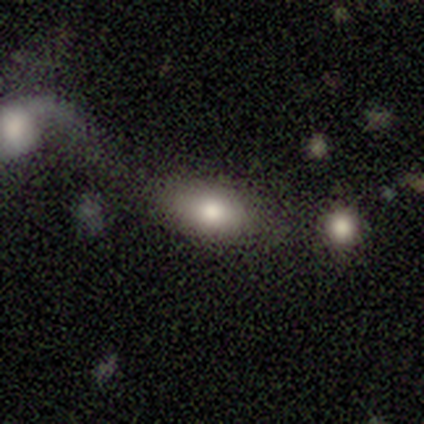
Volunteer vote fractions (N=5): Smooth or featured?
  - smooth: 60% *
  - featured or disk: 20%
  - star or artifact: 20%
How rounded?
  - in between: 100% *
  - round: 0%
  - cigar-shaped: 0%
Merging?
  - none: 75% *
  - merger: 25%
  - minor disturbance: 0%
  - major disturbance: 0%